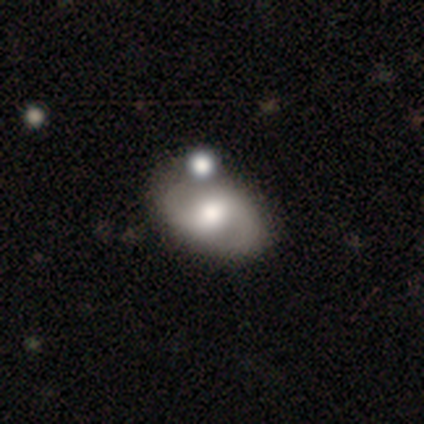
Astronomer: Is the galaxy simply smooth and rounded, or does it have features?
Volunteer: featured or disk — 66%.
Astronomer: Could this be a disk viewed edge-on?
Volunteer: no — 92%.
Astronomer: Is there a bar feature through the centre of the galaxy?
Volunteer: weak — 52% (runner-up: no, 35%).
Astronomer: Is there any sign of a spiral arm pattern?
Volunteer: yes — 91%.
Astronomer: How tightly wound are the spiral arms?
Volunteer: medium — 57% (runner-up: loose, 33%).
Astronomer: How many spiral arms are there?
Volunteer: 2 — 100%.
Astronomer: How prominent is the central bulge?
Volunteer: moderate — 61%.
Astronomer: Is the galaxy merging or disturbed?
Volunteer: none — 68%.